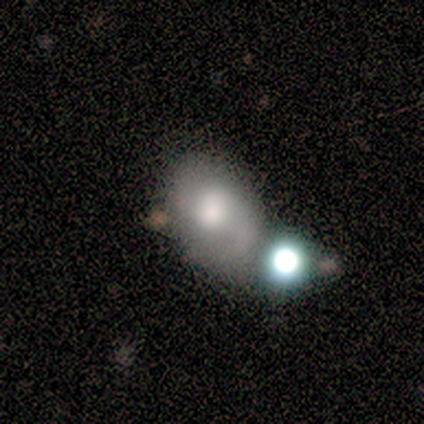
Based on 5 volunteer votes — A smooth galaxy with no disk features (60%) that is in between round and cigar-shaped (100%).

Vote fractions:
- Smooth or featured? smooth: 60% / featured or disk: 40% / star or artifact: 0%
- How rounded? in between: 100% / round: 0% / cigar-shaped: 0%
- Merging? merger: 60% / none: 20% / minor disturbance: 20% / major disturbance: 0%